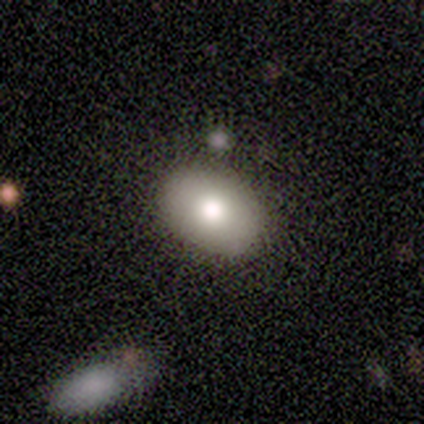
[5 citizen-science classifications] Smooth or featured? smooth (60%)
How rounded? in between (100%)
Merging? none (80%)